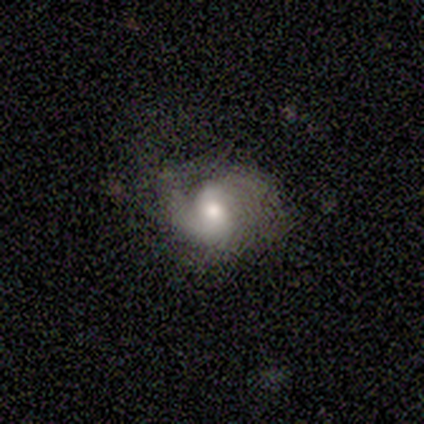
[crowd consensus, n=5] Overall: featured or disk (100%). Edge-on disk: no (100%). Bar: no (60%; strong 20%). Spiral arms: yes (100%). Spiral arm count: 2 (80%). Spiral winding: tight (40%, tied with medium). Bulge size: moderate (60%; small 40%). Merging: minor disturbance (60%; none 40%).